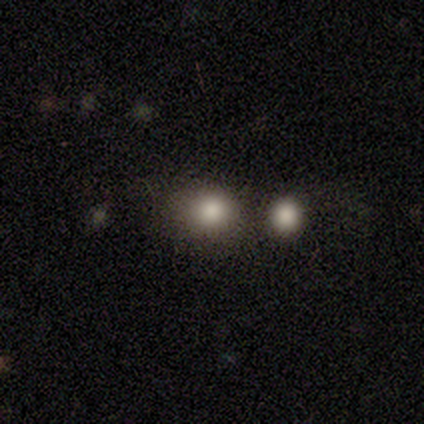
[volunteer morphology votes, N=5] smooth-or-featured: smooth: 80% | star or artifact: 20% | featured or disk: 0%
  how-rounded: round: 100% | in between: 0% | cigar-shaped: 0%
  merging: none: 75% | minor disturbance: 25% | major disturbance: 0% | merger: 0%